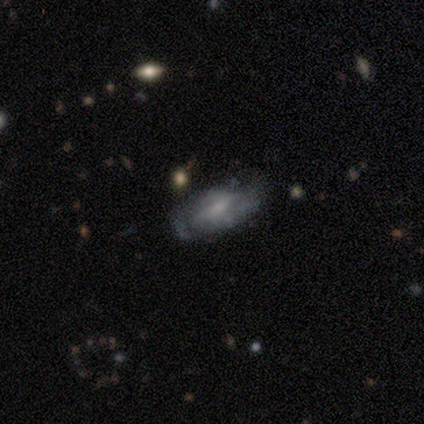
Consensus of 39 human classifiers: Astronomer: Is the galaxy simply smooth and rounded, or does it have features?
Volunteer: featured or disk — 54% (runner-up: smooth, 38%).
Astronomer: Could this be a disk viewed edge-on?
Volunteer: no — 90%.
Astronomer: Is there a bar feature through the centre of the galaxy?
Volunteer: weak — 47%, tied with no at 47%.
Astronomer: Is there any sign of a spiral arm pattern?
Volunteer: yes — 63%.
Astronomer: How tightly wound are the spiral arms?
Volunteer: medium — 67%.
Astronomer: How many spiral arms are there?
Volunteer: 2 — 67%.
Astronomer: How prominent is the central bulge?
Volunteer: small — 47% (runner-up: none, 32%).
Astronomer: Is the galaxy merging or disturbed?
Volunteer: none — 69%.